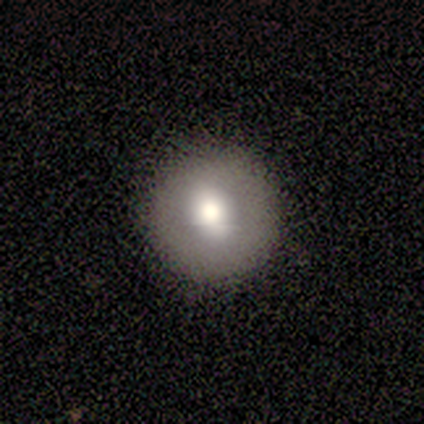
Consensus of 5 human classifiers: smooth 80%, featured or disk 20%, star or artifact 0%. Down the decision tree: how rounded — round (100%); merging — none (100%).